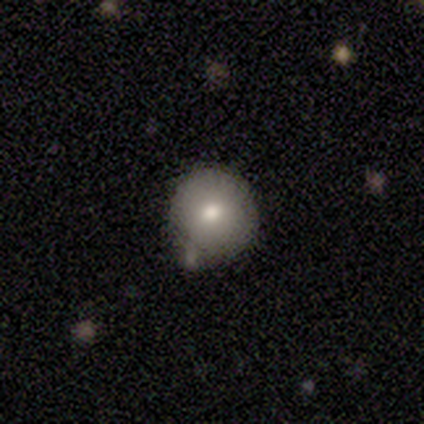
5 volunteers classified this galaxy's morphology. Smooth or featured?
  - smooth: 80% *
  - featured or disk: 20%
  - star or artifact: 0%
How rounded?
  - round: 100% *
  - in between: 0%
  - cigar-shaped: 0%
Merging?
  - none: 60% *
  - minor disturbance: 40%
  - major disturbance: 0%
  - merger: 0%